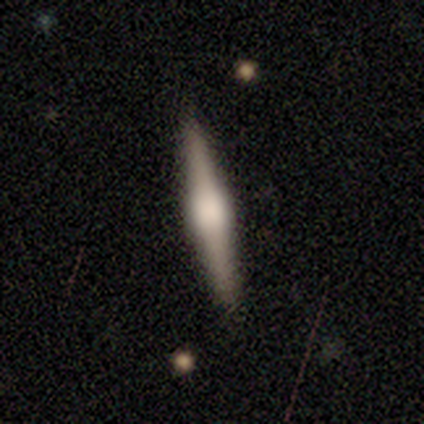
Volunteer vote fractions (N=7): This is marginally a smooth galaxy (43%, tied with featured or disk). How rounded: clearly cigar-shaped (100%). Merging: clearly none (100%).